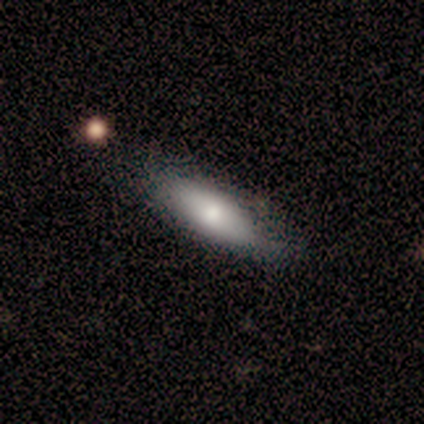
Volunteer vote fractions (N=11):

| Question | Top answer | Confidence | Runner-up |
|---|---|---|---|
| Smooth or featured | smooth | 82% | featured or disk (9%) |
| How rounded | in between | 67% | cigar-shaped (33%) |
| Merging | none | 60% | minor disturbance (30%) |